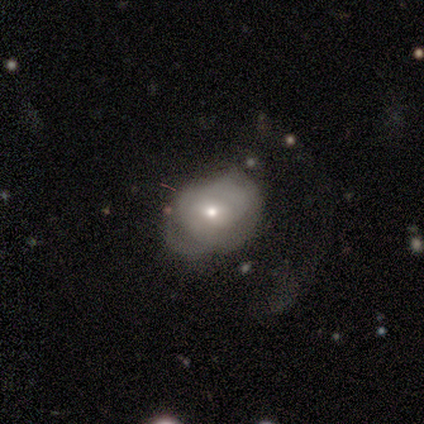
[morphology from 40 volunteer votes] smooth_or_featured: smooth (p=0.45) [tied with: featured or disk p=0.45]
how_rounded: round (p=0.56) [alt: in between p=0.44]
merging: none (p=0.39) [alt: major disturbance p=0.36]